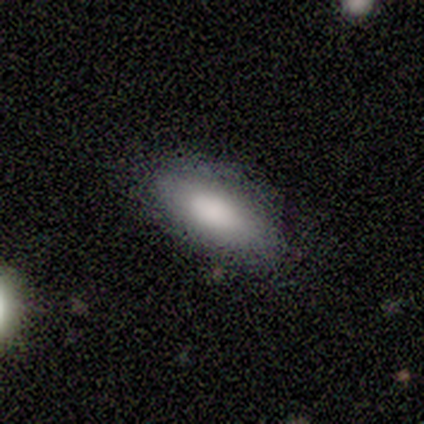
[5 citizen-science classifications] This is clearly a smooth galaxy (100%). How rounded: clearly in between (100%). Merging: clearly none (80%).